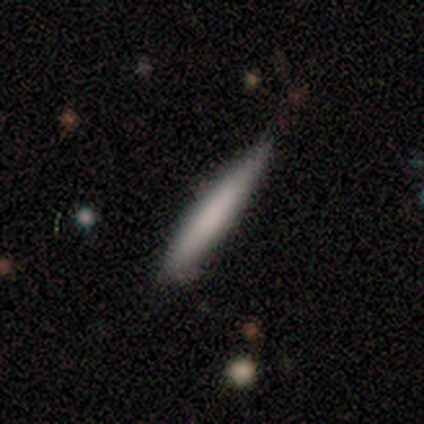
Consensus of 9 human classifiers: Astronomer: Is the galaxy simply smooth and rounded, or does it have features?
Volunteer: smooth — 67%.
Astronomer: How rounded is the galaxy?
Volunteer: cigar-shaped — 100%.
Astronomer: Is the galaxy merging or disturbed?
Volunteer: none — 56% (runner-up: minor disturbance, 44%).